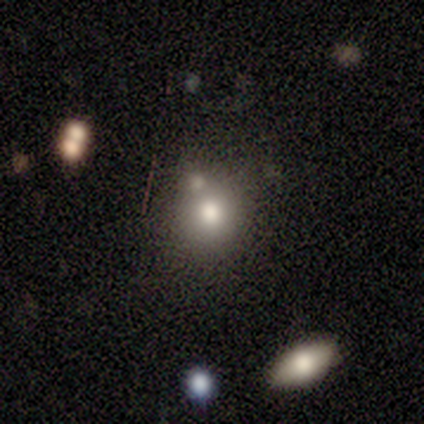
Smooth or featured: smooth — 80% (star or artifact — 20%)
How rounded: round — 75% (in between — 25%)
Merging: none — 50% (minor disturbance — 25%)